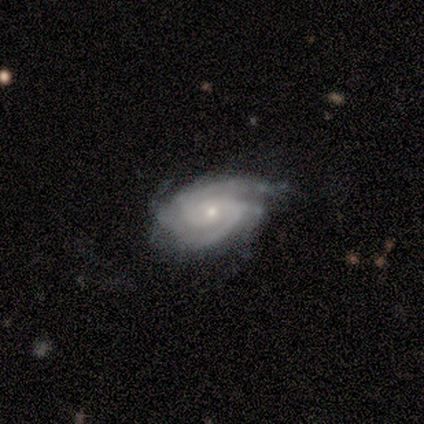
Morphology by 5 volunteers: Smooth or featured? 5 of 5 (100%) said featured or disk. Edge-on disk? 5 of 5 (100%) said no. Bar? 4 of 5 (80%) said no. Spiral arms? 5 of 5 (100%) said yes. Spiral winding? 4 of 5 (80%) said tight. Spiral arm count? 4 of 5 (80%) said 2. Bulge size? 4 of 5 (80%) said small. Merging? 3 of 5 (60%) said minor disturbance.